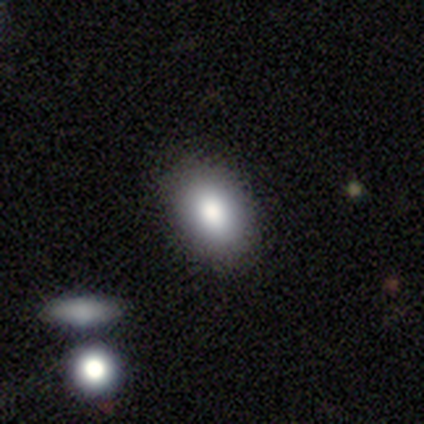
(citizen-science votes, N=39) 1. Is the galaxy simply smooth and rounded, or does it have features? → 77% smooth, 13% star or artifact, 10% featured or disk.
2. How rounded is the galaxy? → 93% in between, 7% round, 0% cigar-shaped.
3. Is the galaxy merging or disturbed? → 79% none, 9% minor disturbance, 9% merger, 3% major disturbance.